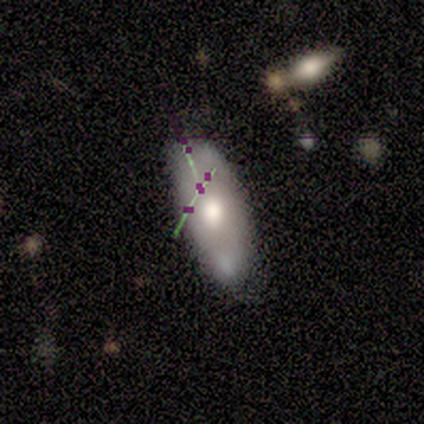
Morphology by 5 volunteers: This appears to be a smooth galaxy with no disk features (40%, tied with star or artifact) that is in between round and cigar-shaped (50%, tied with cigar-shaped). Merging: none (33%, tied with minor disturbance and major disturbance).